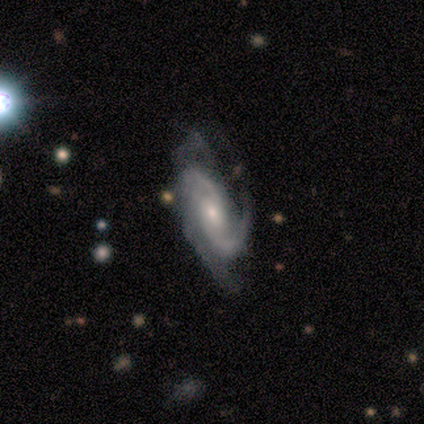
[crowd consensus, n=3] smooth_or_featured: featured or disk (p=1.00)
disk_edge_on: no (p=1.00)
bar: weak (p=0.67) [alt: no p=0.33]
has_spiral_arms: yes (p=1.00)
spiral_winding: medium (p=0.67) [alt: tight p=0.33]
spiral_arm_count: 2 (p=1.00)
bulge_size: moderate (p=0.67) [alt: small p=0.33]
merging: none (p=0.67) [alt: minor disturbance p=0.33]